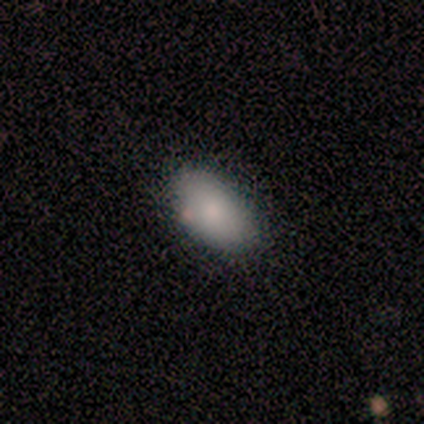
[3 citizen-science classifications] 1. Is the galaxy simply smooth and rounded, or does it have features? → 100% smooth, 0% featured or disk, 0% star or artifact.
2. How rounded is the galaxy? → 100% in between, 0% round, 0% cigar-shaped.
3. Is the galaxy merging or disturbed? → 100% none, 0% minor disturbance, 0% major disturbance, 0% merger.